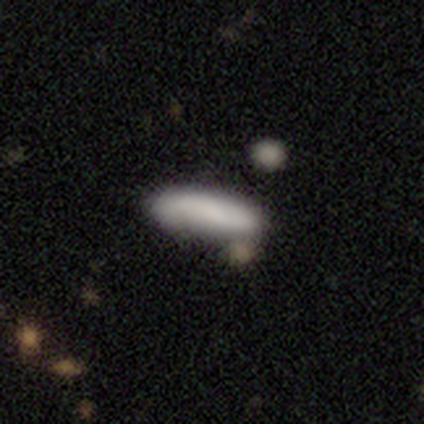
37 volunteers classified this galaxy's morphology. This is clearly a smooth galaxy (89%). How rounded: possibly cigar-shaped (58%). Merging: likely none (70%).